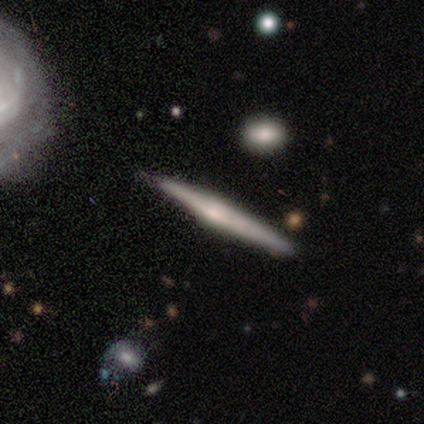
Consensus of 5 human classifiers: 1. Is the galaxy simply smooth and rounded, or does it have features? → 80% featured or disk, 20% smooth, 0% star or artifact.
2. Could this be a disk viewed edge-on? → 100% yes, 0% no.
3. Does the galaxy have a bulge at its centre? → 75% rounded, 25% none, 0% boxy.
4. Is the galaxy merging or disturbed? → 80% none, 20% merger, 0% minor disturbance, 0% major disturbance.